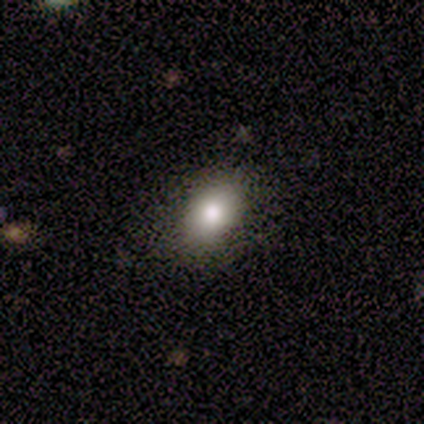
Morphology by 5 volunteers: Smooth or featured?
  - smooth: 100% *
  - featured or disk: 0%
  - star or artifact: 0%
How rounded?
  - in between: 80% *
  - round: 20%
  - cigar-shaped: 0%
Merging?
  - none: 80% *
  - minor disturbance: 20%
  - major disturbance: 0%
  - merger: 0%